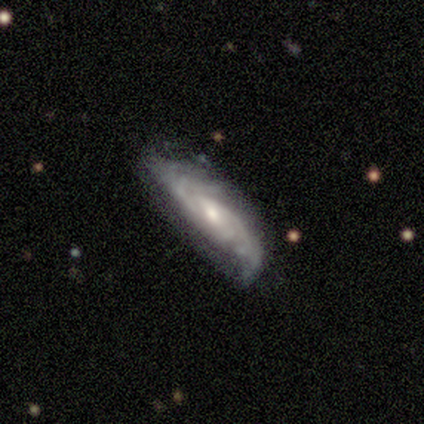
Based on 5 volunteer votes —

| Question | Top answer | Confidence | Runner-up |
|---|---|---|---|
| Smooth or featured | featured or disk | 80% | smooth (20%) |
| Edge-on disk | no | 75% | yes (25%) |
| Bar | no | 67% | strong (33%) |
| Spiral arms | yes | 100% | — |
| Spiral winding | tight | 67% | medium (33%) |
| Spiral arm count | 2 | 67% | 4 (33%) |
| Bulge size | small | 100% | — |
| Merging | none | 80% | minor disturbance (20%) |